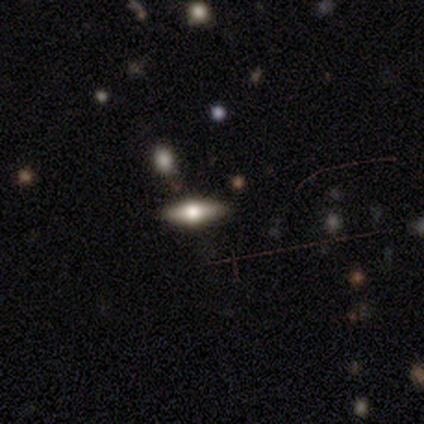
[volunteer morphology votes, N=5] Q: Smooth or featured?
A: featured or disk (60%); runner-up: smooth (40%)
Q: Edge-on disk?
A: yes (100%)
Q: Edge-on bulge?
A: rounded (100%)
Q: Merging?
A: none (80%); runner-up: major disturbance (20%)